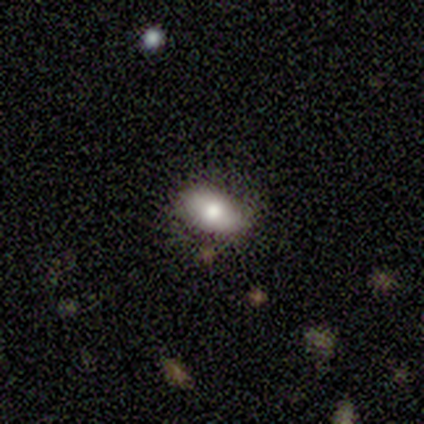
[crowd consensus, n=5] Q: Smooth or featured?
A: smooth (80%); runner-up: star or artifact (20%)
Q: How rounded?
A: in between (100%)
Q: Merging?
A: none (50%); tied with: minor disturbance (50%)